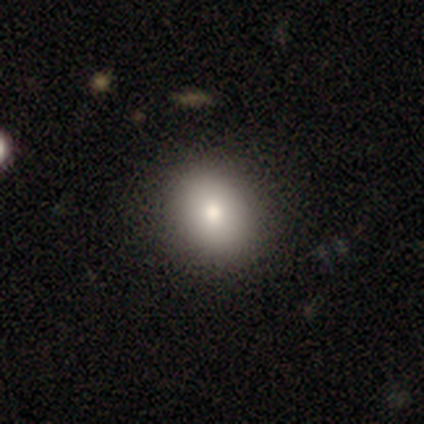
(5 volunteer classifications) This is marginally a smooth galaxy (40%, tied with star or artifact). How rounded: clearly round (100%). Merging: clearly none (100%).